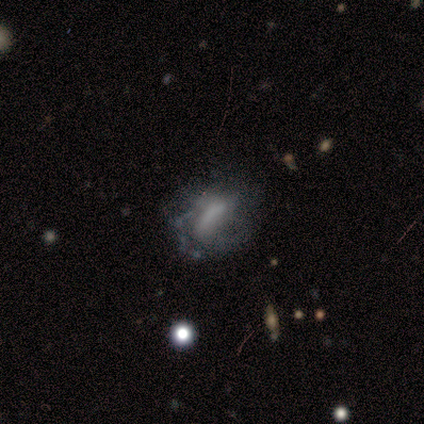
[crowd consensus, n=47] Q: Smooth or featured?
A: featured or disk (62%); runner-up: smooth (28%)
Q: Edge-on disk?
A: no (93%); runner-up: yes (7%)
Q: Bar?
A: no (41%); runner-up: weak (33%)
Q: Spiral arms?
A: yes (56%); runner-up: no (44%)
Q: Spiral winding?
A: tight (40%); runner-up: loose (33%)
Q: Spiral arm count?
A: can't tell (47%); runner-up: 2 (33%)
Q: Bulge size?
A: none (52%); runner-up: moderate (22%)
Q: Merging?
A: none (43%); runner-up: minor disturbance (29%)